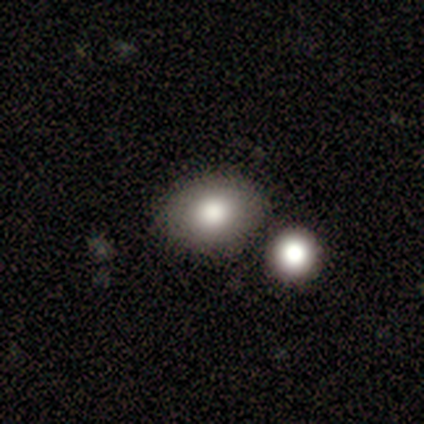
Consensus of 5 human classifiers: Morphology: type=smooth (80%); roundness=round (50%, tied with in between); merging=none (100%).